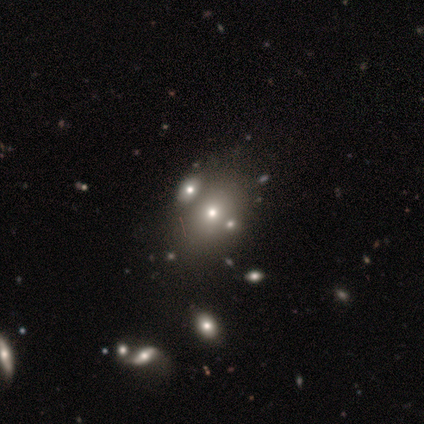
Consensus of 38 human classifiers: A smooth galaxy with no disk features (63%) that is in between round and cigar-shaped (62%).

Vote fractions:
- Smooth or featured? smooth: 63% / featured or disk: 26% / star or artifact: 11%
- How rounded? in between: 62% / round: 38% / cigar-shaped: 0%
- Merging? none: 53% / merger: 32% / major disturbance: 9% / minor disturbance: 6%